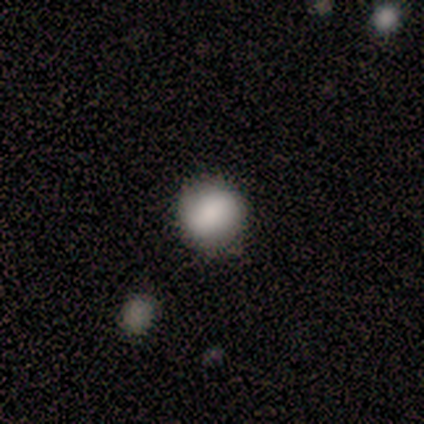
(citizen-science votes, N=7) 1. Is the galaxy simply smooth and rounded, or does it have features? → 86% smooth, 14% featured or disk, 0% star or artifact.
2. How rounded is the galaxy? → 83% round, 17% in between, 0% cigar-shaped.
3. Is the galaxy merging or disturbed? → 86% none, 14% major disturbance, 0% minor disturbance, 0% merger.